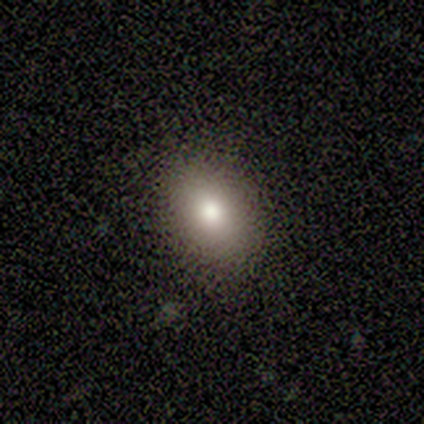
Volunteers were most divided on "smooth or featured": smooth: 82%, featured or disk: 9%, star or artifact: 9%. More confident: merging — none (90%); how rounded — in between (89%).